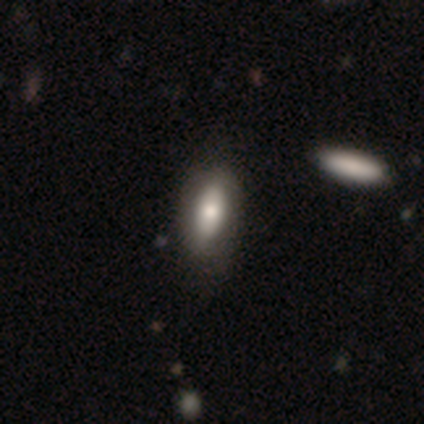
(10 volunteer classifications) A smooth galaxy with no disk features (70%) that is in between round and cigar-shaped (86%).

Vote fractions:
- Smooth or featured? smooth: 70% / featured or disk: 30% / star or artifact: 0%
- How rounded? in between: 86% / cigar-shaped: 14% / round: 0%
- Merging? none: 90% / minor disturbance: 10% / major disturbance: 0% / merger: 0%